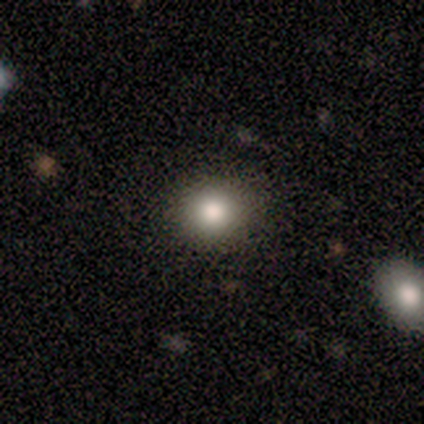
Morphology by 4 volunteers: smooth 75%, star or artifact 25%, featured or disk 0%. Down the decision tree: how rounded — round (100%); merging — none (100%).